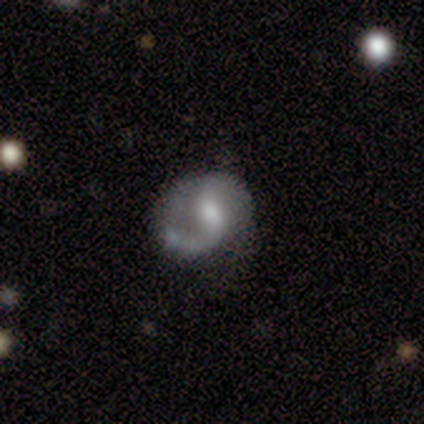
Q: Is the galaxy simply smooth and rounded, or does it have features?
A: featured or disk — 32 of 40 (80%).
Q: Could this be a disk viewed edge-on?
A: no — 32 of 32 (100%).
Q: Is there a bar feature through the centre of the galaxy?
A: weak — 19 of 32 (59%).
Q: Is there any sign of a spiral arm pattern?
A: yes — 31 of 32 (97%).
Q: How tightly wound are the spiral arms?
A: medium — 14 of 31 (45%, tied with loose).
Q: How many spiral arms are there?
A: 2 — 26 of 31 (84%).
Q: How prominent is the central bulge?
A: moderate — 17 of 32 (53%).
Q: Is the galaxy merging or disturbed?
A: none — 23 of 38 (61%).